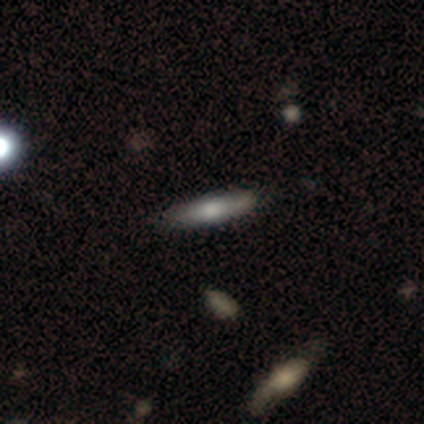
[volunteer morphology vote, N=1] smooth_or_featured: smooth (p=1.00)
how_rounded: cigar-shaped (p=1.00)
merging: none (p=1.00)